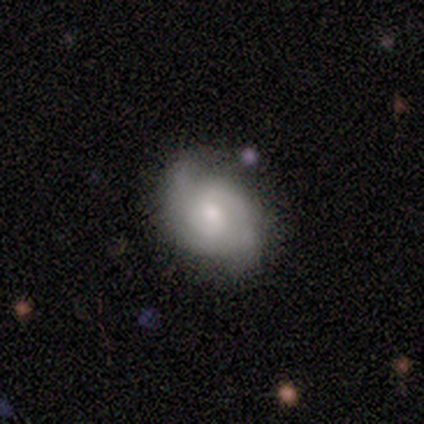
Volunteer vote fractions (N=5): Smooth or featured? 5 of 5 (100%) said featured or disk. Edge-on disk? 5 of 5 (100%) said no. Bar? 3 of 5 (60%) said no. Spiral arms? 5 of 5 (100%) said yes. Spiral winding? 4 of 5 (80%) said medium. Spiral arm count? 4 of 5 (80%) said 2. Bulge size? 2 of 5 (40%, tied with small) said moderate. Merging? 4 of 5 (80%) said none.